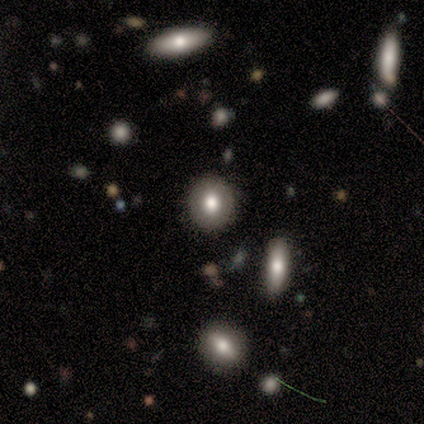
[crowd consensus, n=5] Smooth or featured? smooth (80%)
How rounded? round (100%)
Merging? none (75%)